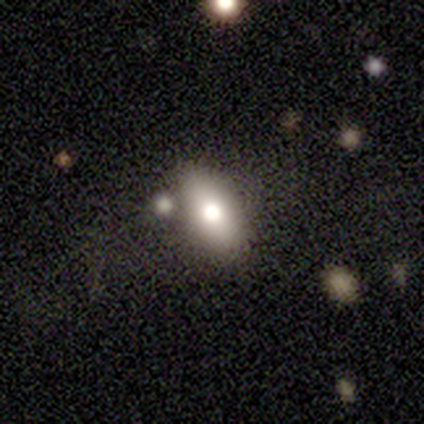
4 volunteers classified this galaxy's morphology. Smooth or featured? smooth (50%, tied with featured or disk)
How rounded? round (50%, tied with in between)
Merging? merger (50%)